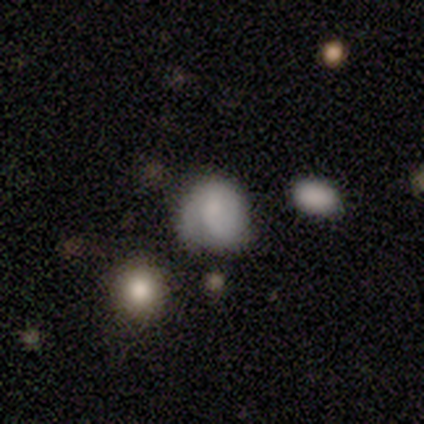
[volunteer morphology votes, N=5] Smooth or featured: smooth — 80% (featured or disk — 20%)
How rounded: in between — 75% (round — 25%)
Merging: none — 80% (major disturbance — 20%)